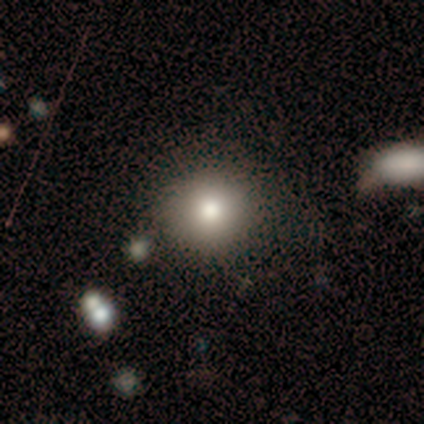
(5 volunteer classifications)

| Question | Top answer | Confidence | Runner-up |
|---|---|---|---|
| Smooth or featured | smooth | 80% | featured or disk (20%) |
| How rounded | round | 100% | — |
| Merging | none | 100% | — |